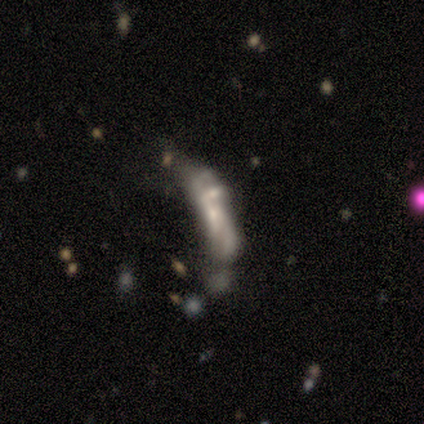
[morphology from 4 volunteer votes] This appears to be a featured or disk galaxy (75%) with no bar (67%), no spiral arms (100%) and a moderate central bulge (33%, tied with small and none). Merging: merger (50%).